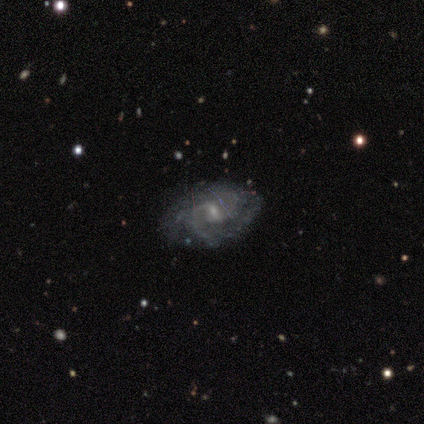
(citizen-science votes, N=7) smooth_or_featured: featured or disk (p=1.00)
disk_edge_on: no (p=1.00)
bar: weak (p=0.71) [alt: strong p=0.14]
has_spiral_arms: yes (p=1.00)
spiral_winding: tight (p=0.86) [alt: medium p=0.14]
spiral_arm_count: 2 (p=0.29) [tied with: can't tell p=0.29]
bulge_size: small (p=0.86) [alt: moderate p=0.14]
merging: none (p=0.86) [alt: minor disturbance p=0.14]